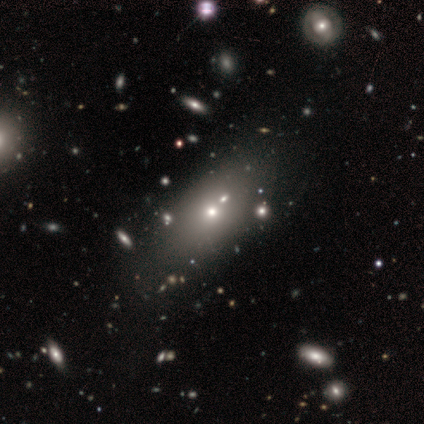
A smooth galaxy with no disk features (80%) that is in between round and cigar-shaped (75%). Merging: none (60%).